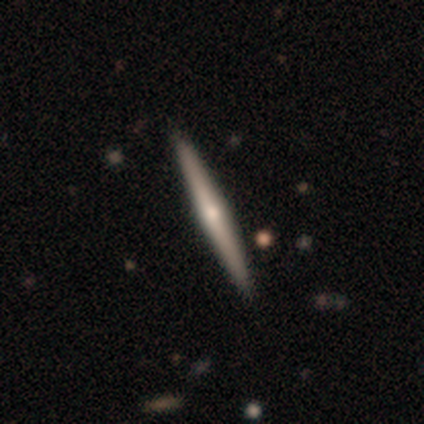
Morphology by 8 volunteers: A featured or disk galaxy (75%) viewed edge-on (100%) with a rounded central bulge (100%). Merging: none (86%).